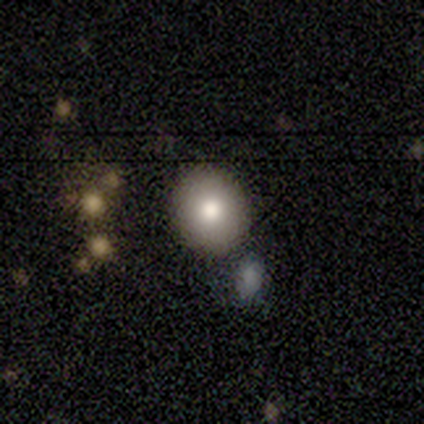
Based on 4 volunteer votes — Smooth or featured? smooth (75%)
How rounded? round (100%)
Merging? none (75%)